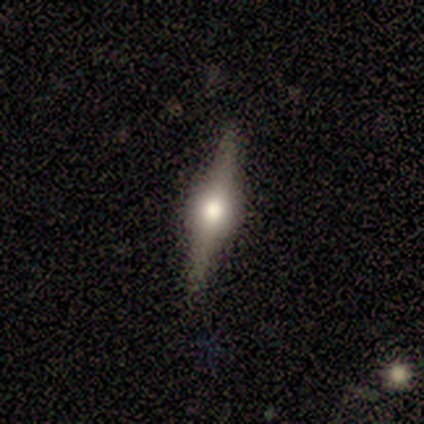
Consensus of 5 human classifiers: Volunteers were most divided on "edge-on bulge": rounded: 80%, boxy: 20%, none: 0%. More confident: smooth or featured — featured or disk (100%); edge-on disk — yes (100%); merging — none (100%).